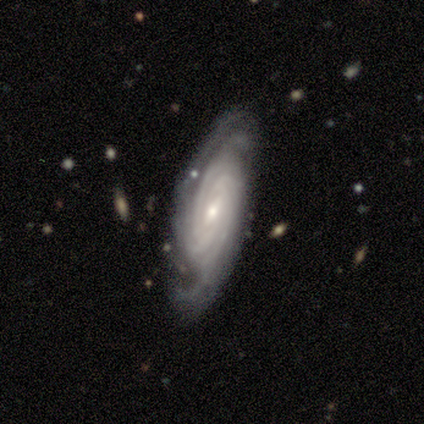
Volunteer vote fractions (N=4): smooth-or-featured: featured or disk: 100% | smooth: 0% | star or artifact: 0%
  disk-edge-on: no: 100% | yes: 0%
    bar: weak: 50% | strong: 25% | no: 25%
    has-spiral-arms: yes: 100% | no: 0%
      spiral-winding: tight: 75% | medium: 25% | loose: 0%
      spiral-arm-count: 4: 100% | 1: 0% | 2: 0% | 3: 0% | more than 4: 0% | can't tell: 0%
    bulge-size: small: 75% | moderate: 25% | dominant: 0% | large: 0% | none: 0%
  merging: none: 75% | minor disturbance: 25% | major disturbance: 0% | merger: 0%